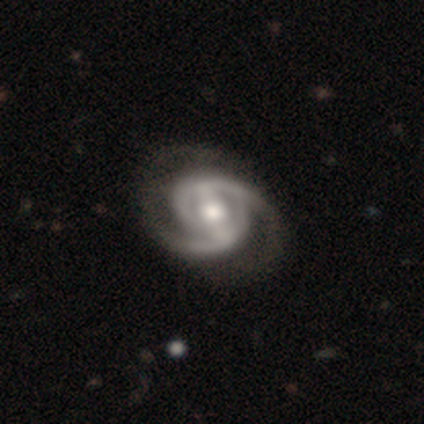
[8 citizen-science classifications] Morphology: type=featured or disk (100%); edge-on=no (100%); bar=weak (62%); spiral arms=yes (100%); winding=medium (50%); arm count=2 (100%); bulge=moderate (88%); merging=none (88%).